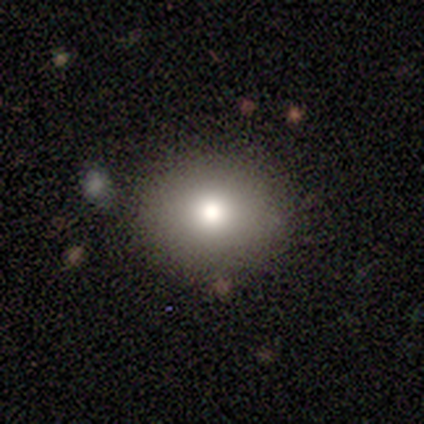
Smooth or featured? 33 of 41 (80%) said smooth. How rounded? 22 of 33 (67%) said round. Merging? 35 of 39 (90%) said none.